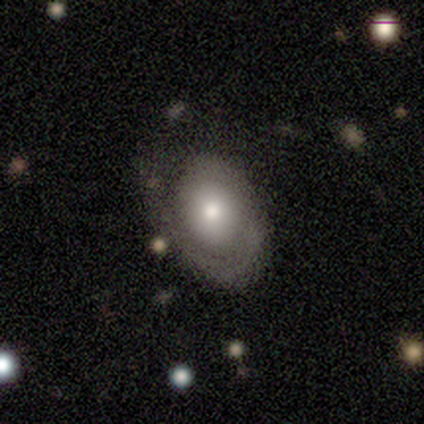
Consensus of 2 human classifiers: Smooth or featured: featured or disk — 100%
Edge-on disk: no — 100%
Bar: no — 100%
Spiral arms: yes — 100%
Spiral winding: tight — 100%
Spiral arm count: 1 — 100%
Bulge size: small — 100%
Merging: none — 100%